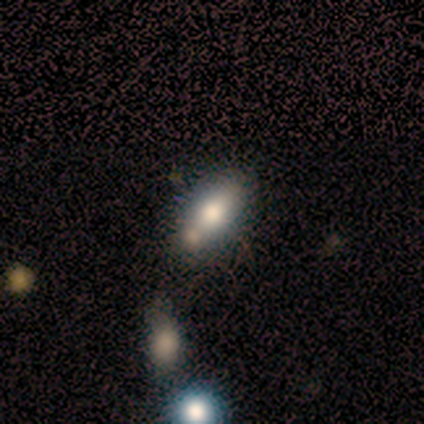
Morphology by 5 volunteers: smooth 40% (tied), featured or disk 40% (tied), star or artifact 20%. Down the decision tree: how rounded — in between (100%); merging — minor disturbance (50%).